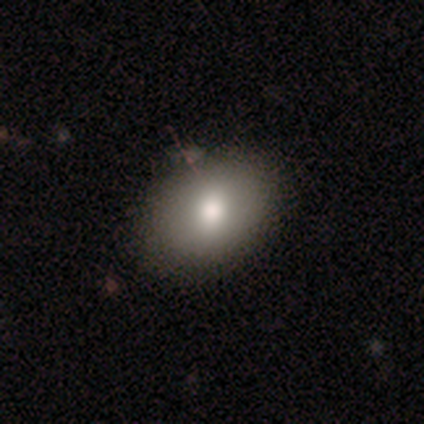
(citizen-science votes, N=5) A smooth galaxy with no disk features (100%) that is in between round and cigar-shaped (100%). Merging: none (100%).